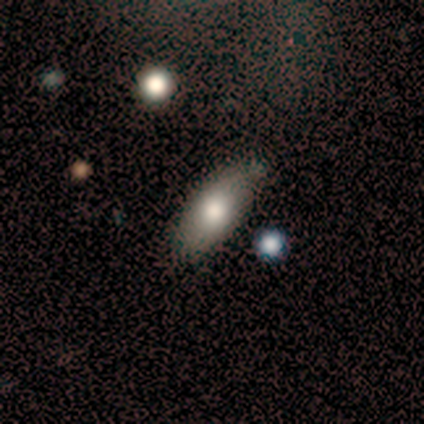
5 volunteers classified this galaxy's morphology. A smooth galaxy with no disk features (80%) that is in between round and cigar-shaped (100%).

Vote fractions:
- Smooth or featured? smooth: 80% / featured or disk: 20% / star or artifact: 0%
- How rounded? in between: 100% / round: 0% / cigar-shaped: 0%
- Merging? none: 100% / minor disturbance: 0% / major disturbance: 0% / merger: 0%